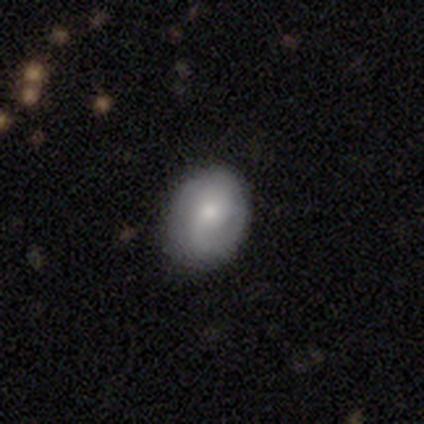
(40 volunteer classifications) This is likely a smooth galaxy (62%). How rounded: likely in between (72%). Merging: clearly none (86%).